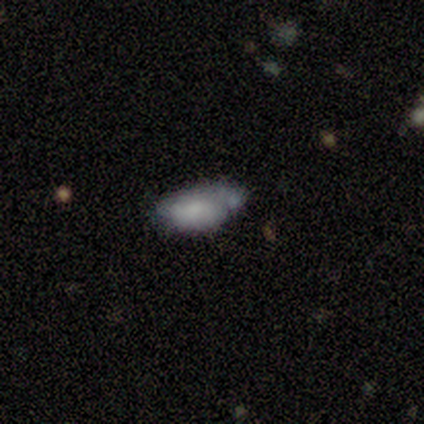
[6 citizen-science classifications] A smooth galaxy with no disk features (67%) that is in between round and cigar-shaped (100%). Merging: minor disturbance (33%, tied with merger).